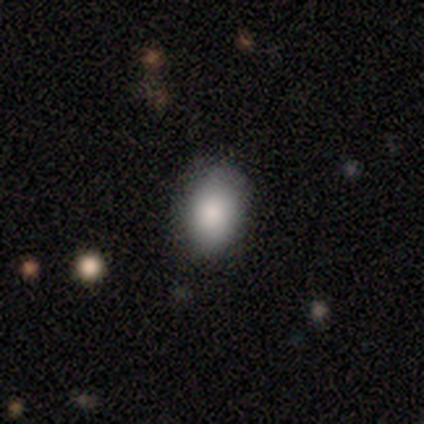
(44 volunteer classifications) smooth-or-featured: smooth: 93% | featured or disk: 5% | star or artifact: 2%
  how-rounded: in between: 85% | round: 15% | cigar-shaped: 0%
  merging: none: 81% | minor disturbance: 14% | major disturbance: 2% | merger: 2%